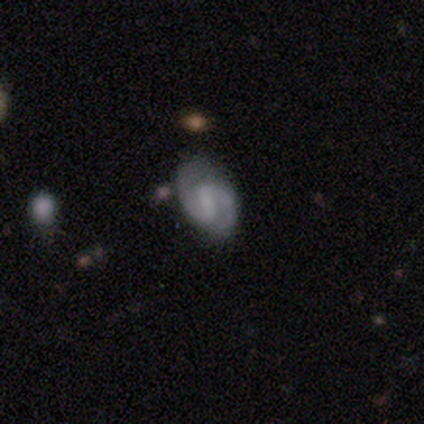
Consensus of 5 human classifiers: Volunteers were most divided on "bulge size": small: 40%, large: 20%, moderate: 20%, none: 20%, dominant: 0%. More confident: smooth or featured — featured or disk (100%); edge-on disk — no (100%); spiral arms — yes (100%); spiral arm count — 2 (100%); bar — weak (80%); merging — none (80%); spiral winding — tight (60%).